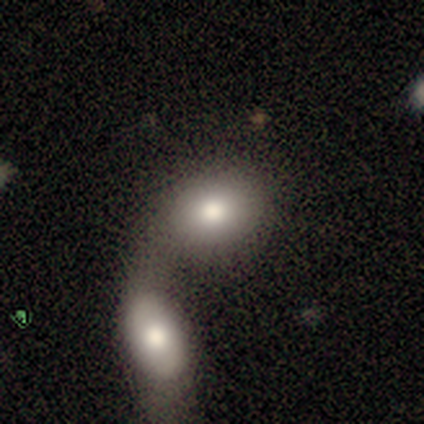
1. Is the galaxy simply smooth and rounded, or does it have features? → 80% smooth, 20% featured or disk, 0% star or artifact.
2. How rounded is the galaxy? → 100% in between, 0% round, 0% cigar-shaped.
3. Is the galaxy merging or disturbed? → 100% merger, 0% none, 0% minor disturbance, 0% major disturbance.